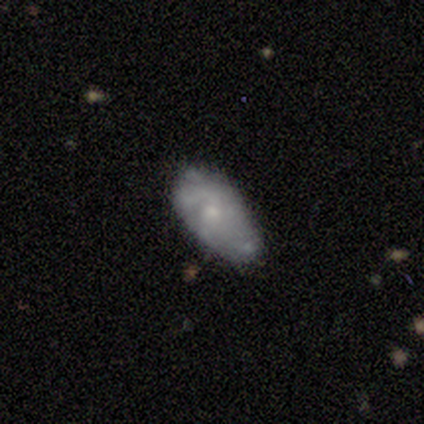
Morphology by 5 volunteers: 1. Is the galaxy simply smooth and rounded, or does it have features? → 60% featured or disk, 40% smooth, 0% star or artifact.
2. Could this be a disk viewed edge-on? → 100% no, 0% yes.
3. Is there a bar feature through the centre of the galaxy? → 100% weak, 0% strong, 0% no.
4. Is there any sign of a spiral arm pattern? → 67% yes, 33% no.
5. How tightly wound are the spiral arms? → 50% tight (tied), 50% medium (tied), 0% loose.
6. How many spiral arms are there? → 50% 3 (tied), 50% can't tell (tied), 0% 1, 0% 2, 0% 4, 0% more than 4.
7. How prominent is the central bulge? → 67% moderate, 33% small, 0% dominant, 0% large, 0% none.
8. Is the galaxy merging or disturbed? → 60% major disturbance, 40% minor disturbance, 0% none, 0% merger.